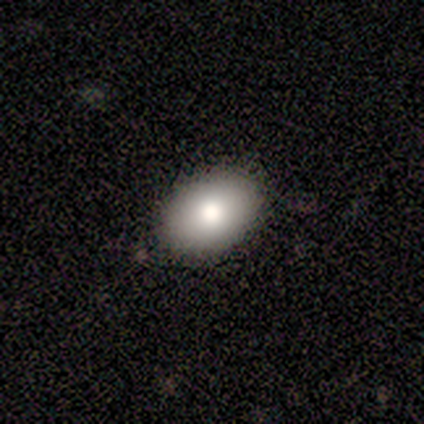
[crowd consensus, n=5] smooth-or-featured: smooth: 80% | star or artifact: 20% | featured or disk: 0%
  how-rounded: in between: 100% | round: 0% | cigar-shaped: 0%
  merging: none: 75% | minor disturbance: 25% | major disturbance: 0% | merger: 0%